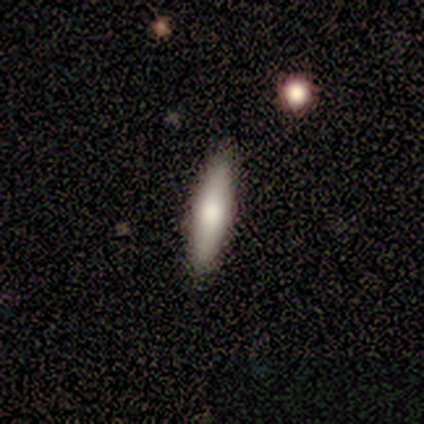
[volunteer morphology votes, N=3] Smooth or featured? 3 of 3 (100%) said smooth. How rounded? 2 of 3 (67%) said in between. Merging? 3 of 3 (100%) said none.